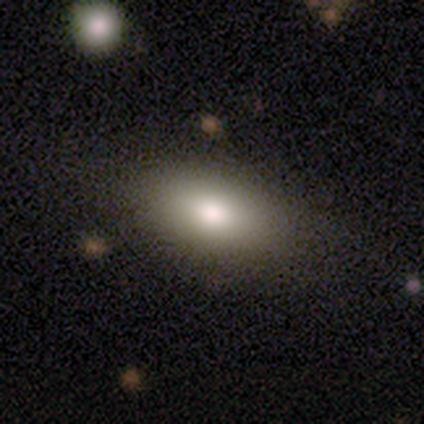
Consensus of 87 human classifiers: Smooth or featured?
  - smooth: 74% *
  - featured or disk: 16%
  - star or artifact: 10%
How rounded?
  - in between: 89% *
  - round: 6%
  - cigar-shaped: 5%
Merging?
  - none: 73% *
  - minor disturbance: 18%
  - major disturbance: 6%
  - merger: 3%